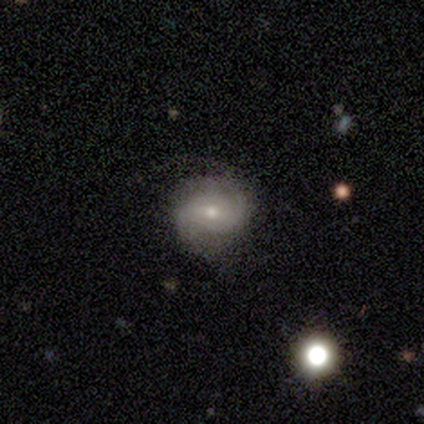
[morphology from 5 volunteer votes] type=smooth (40%, tied with featured or disk); roundness=in between (100%); merging=none (50%, tied with minor disturbance).